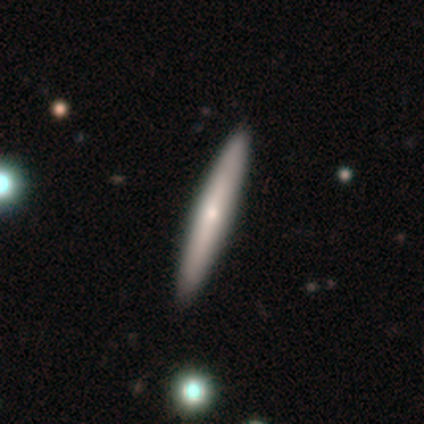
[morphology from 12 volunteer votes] A featured or disk galaxy (83%) viewed edge-on (80%) with no central bulge (50%, tied with rounded).

Vote fractions:
- Smooth or featured? featured or disk: 83% / smooth: 17% / star or artifact: 0%
- Edge-on disk? yes: 80% / no: 20%
- Edge-on bulge? none: 50% (tied) / rounded: 50% (tied) / boxy: 0%
- Merging? none: 100% / minor disturbance: 0% / major disturbance: 0% / merger: 0%